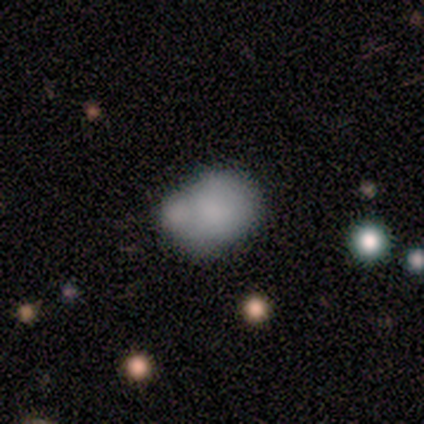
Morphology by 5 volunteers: A smooth galaxy with no disk features (100%) that is in between round and cigar-shaped (60%). Merging: merger (100%).